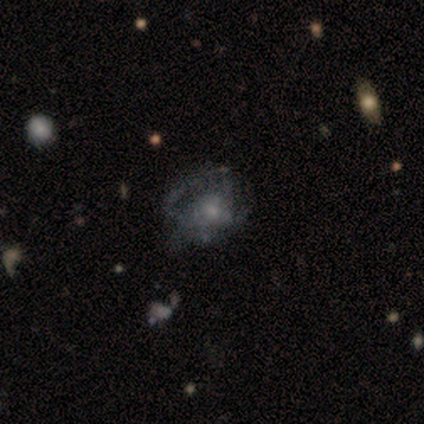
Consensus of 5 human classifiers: Morphology: type=featured or disk (80%); edge-on=no (100%); bar=no (100%); spiral arms=yes (50%, tied with no); winding=tight (100%); arm count=3 (100%); bulge=small (75%); merging=none (40%, tied with minor disturbance).